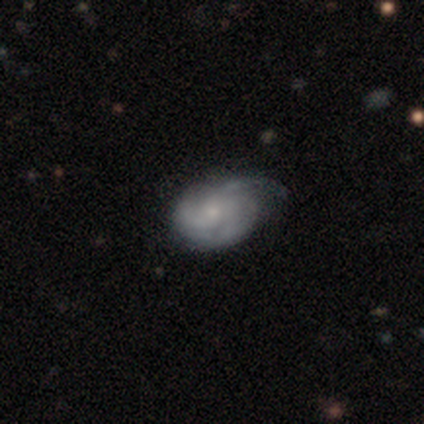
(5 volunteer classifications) smooth_or_featured: featured or disk (p=0.80) [alt: star or artifact p=0.20]
disk_edge_on: no (p=1.00)
bar: no (p=1.00)
has_spiral_arms: yes (p=0.50) [tied with: no p=0.50]
spiral_winding: medium (p=1.00)
spiral_arm_count: 3 (p=0.50) [tied with: can't tell p=0.50]
bulge_size: small (p=0.50) [alt: moderate p=0.25]
merging: minor disturbance (p=0.75) [alt: none p=0.25]